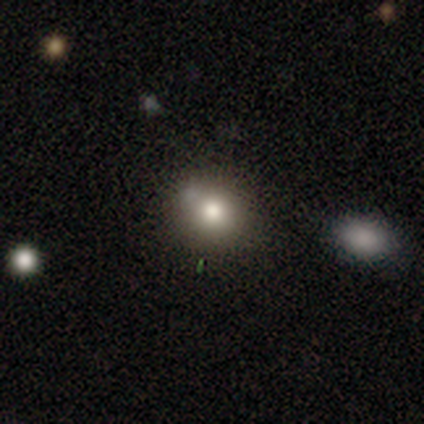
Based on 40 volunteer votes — This appears to be a smooth galaxy with no disk features (78%) that is round (58%). Merging: none (74%).